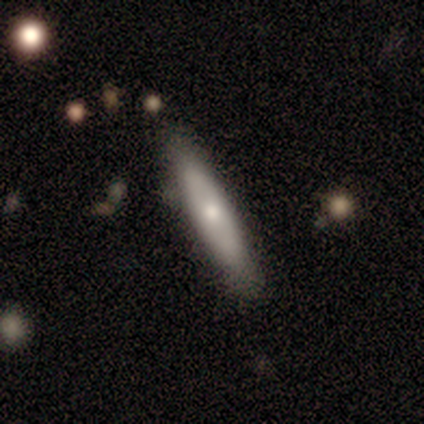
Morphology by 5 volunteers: Smooth or featured? 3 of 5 (60%) said featured or disk. Edge-on disk? 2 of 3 (67%) said yes. Edge-on bulge? 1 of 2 (50%, tied with rounded) said none. Merging? 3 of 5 (60%) said minor disturbance.